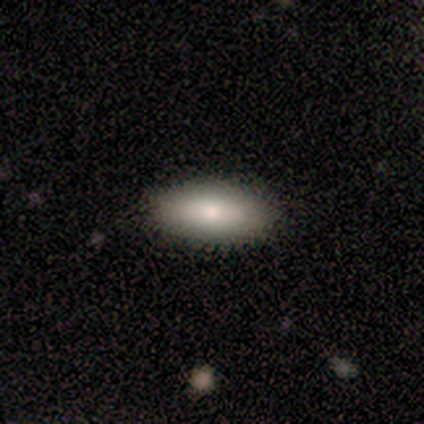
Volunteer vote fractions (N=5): Volunteers were most divided on "smooth or featured": smooth: 80%, featured or disk: 20%, star or artifact: 0%. More confident: how rounded — in between (100%); merging — none (80%).